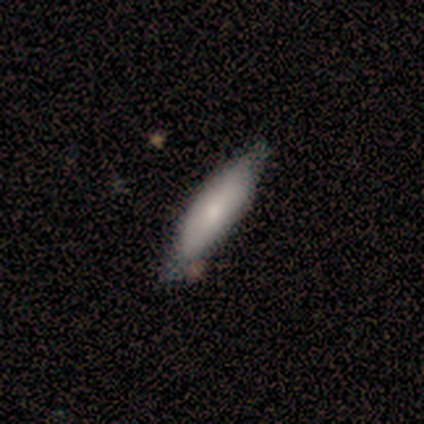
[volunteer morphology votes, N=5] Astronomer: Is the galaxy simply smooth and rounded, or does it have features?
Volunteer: smooth — 100%.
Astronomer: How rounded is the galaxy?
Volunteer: cigar-shaped — 100%.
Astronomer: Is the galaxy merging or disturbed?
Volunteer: none — 100%.